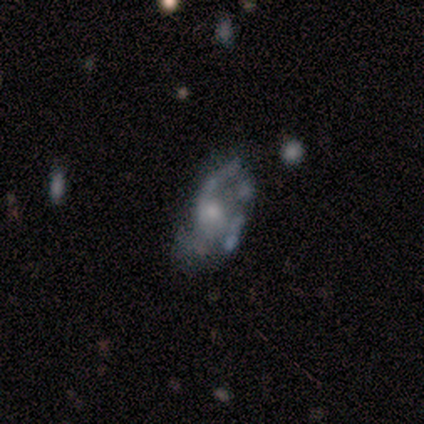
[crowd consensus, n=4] This appears to be a featured or disk galaxy (100%) with no bar (100%), 2 (67%) loose (67%) spiral arms (75%) and a moderate central bulge (50%, tied with small). Merging: none (50%).